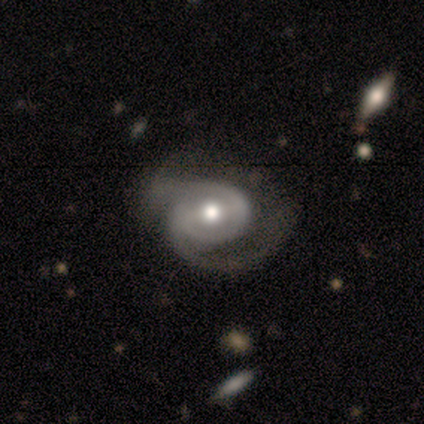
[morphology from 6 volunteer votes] Overall: featured or disk (83%). Edge-on disk: no (100%). Bar: weak (40%, tied with no). Spiral arms: yes (100%). Spiral arm count: 2 (100%). Spiral winding: medium (80%). Bulge size: moderate (100%). Merging: minor disturbance (50%; none 33%).